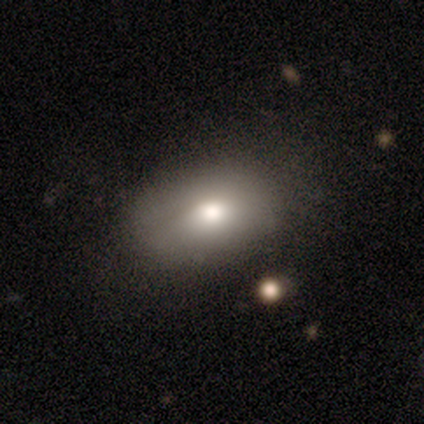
smooth_or_featured: smooth (p=0.72) [alt: featured or disk p=0.28]
how_rounded: in between (p=0.93) [alt: round p=0.07]
merging: none (p=0.49) [alt: minor disturbance p=0.21]